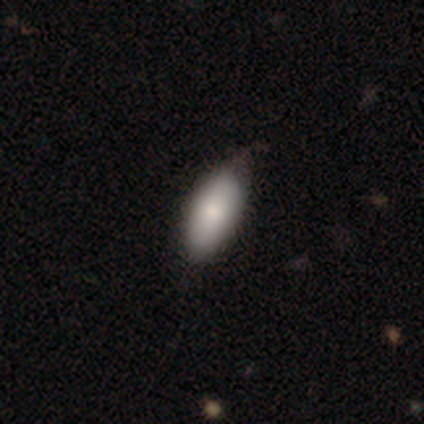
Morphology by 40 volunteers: A smooth galaxy with no disk features (82%) that is in between round and cigar-shaped (91%). Merging: none (49%).